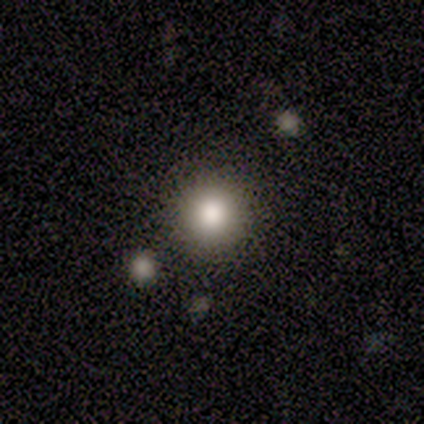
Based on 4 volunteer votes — Smooth or featured: smooth — 50% (tied with star or artifact — 50%)
How rounded: round — 100%
Merging: none — 50% (tied with merger — 50%)